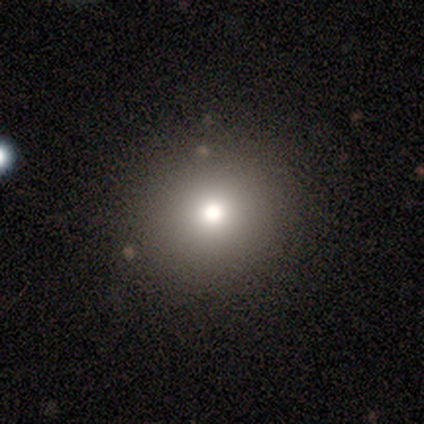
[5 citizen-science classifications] Smooth or featured?
  - star or artifact: 60% *
  - smooth: 40%
  - featured or disk: 0%